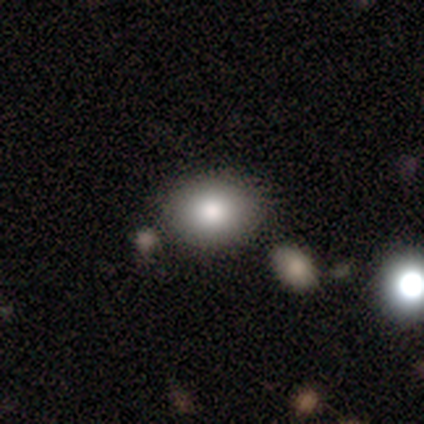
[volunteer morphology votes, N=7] Smooth or featured: smooth — 100%
How rounded: in between — 71% (round — 29%)
Merging: none — 57% (minor disturbance — 29%)